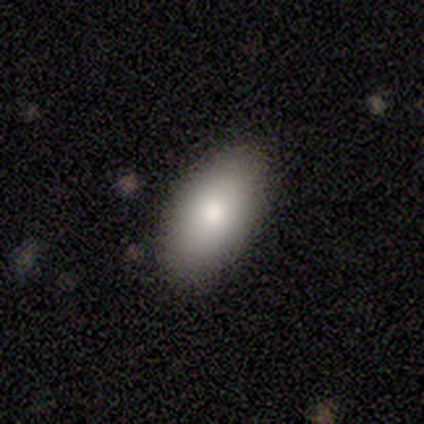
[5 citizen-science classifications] This is likely a smooth galaxy (60%). How rounded: likely in between (67%). Merging: clearly none (80%).